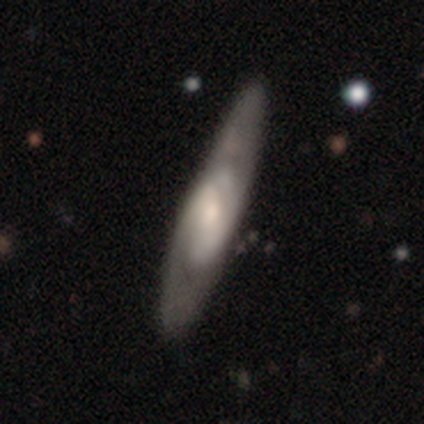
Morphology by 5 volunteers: Smooth or featured? featured or disk (80%)
Edge-on disk? no (75%)
Bar? strong (33%, tied with weak and no)
Spiral arms? yes (67%)
Spiral winding? tight (50%, tied with medium)
Spiral arm count? 2 (50%, tied with can't tell)
Bulge size? moderate (100%)
Merging? none (60%)